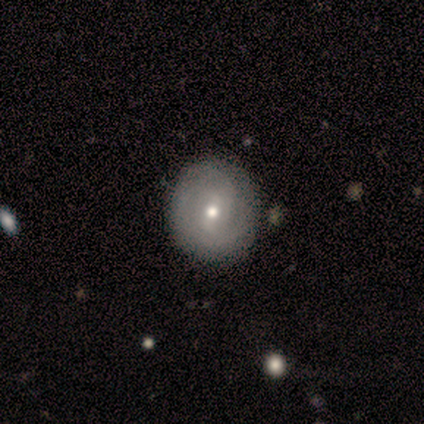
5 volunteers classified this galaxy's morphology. A smooth galaxy with no disk features (60%) that is round (100%). Merging: none (60%).